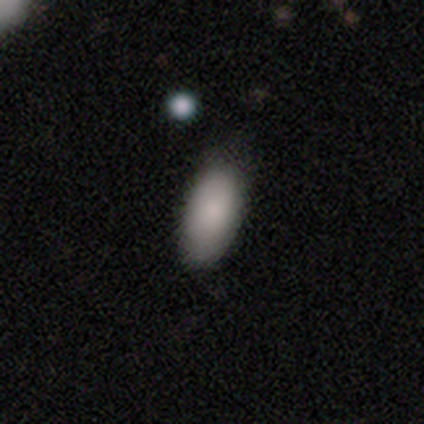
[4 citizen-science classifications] A smooth galaxy with no disk features (50%, tied with star or artifact) that is in between round and cigar-shaped (100%). Merging: none (100%).